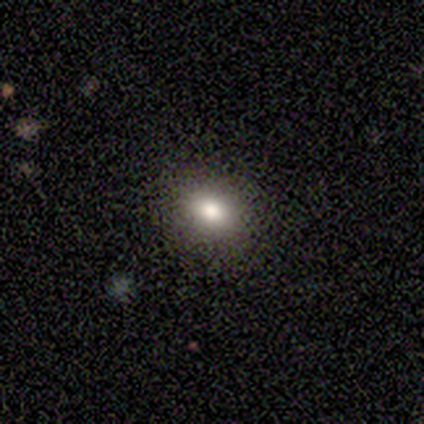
smooth_or_featured: smooth (p=0.75) [alt: star or artifact p=0.25]
how_rounded: round (p=0.67) [alt: in between p=0.33]
merging: none (p=1.00)